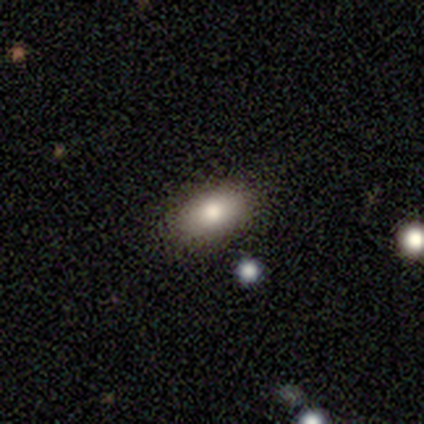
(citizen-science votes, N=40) Volunteers were most divided on "merging": none: 57%, major disturbance: 5%, merger: 5%, minor disturbance: 3%. More confident: how rounded — in between (90%); smooth or featured — smooth (78%).